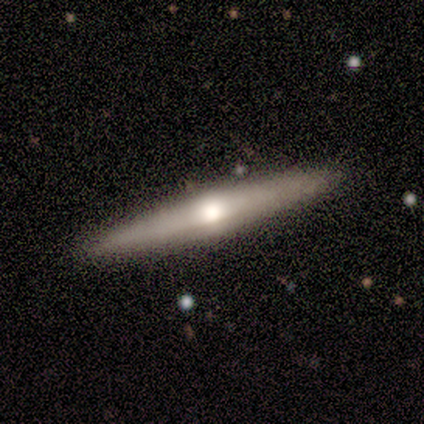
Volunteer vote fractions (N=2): Consensus on every question: smooth or featured — featured or disk (100%); edge-on disk — yes (100%); edge-on bulge — rounded (100%); merging — none (100%).